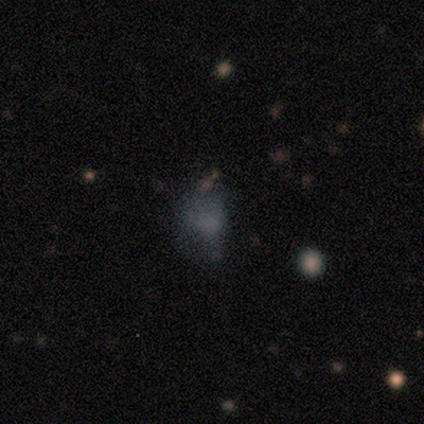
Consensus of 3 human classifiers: This appears to be a smooth galaxy with no disk features (67%) that is in between round and cigar-shaped (100%). Merging: minor disturbance (33%, tied with major disturbance and merger).